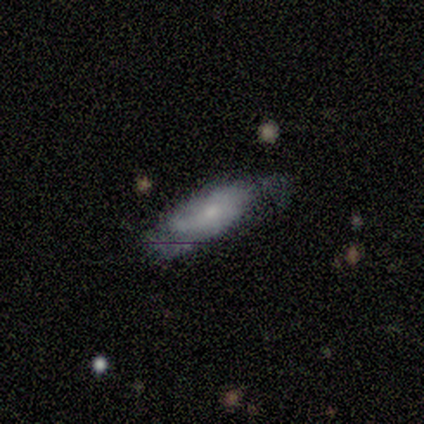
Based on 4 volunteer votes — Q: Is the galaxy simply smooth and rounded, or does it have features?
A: smooth — 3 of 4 (75%).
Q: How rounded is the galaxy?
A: in between — 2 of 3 (67%).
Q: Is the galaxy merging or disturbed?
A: none — 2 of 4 (50%).